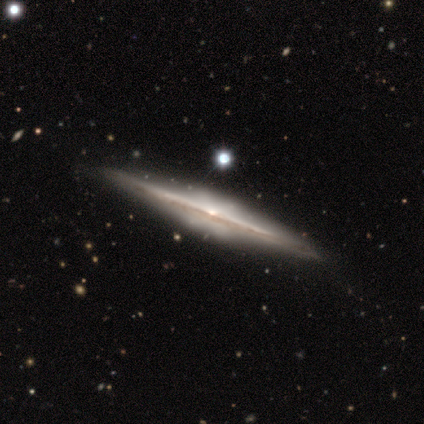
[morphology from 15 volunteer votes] This is likely a featured or disk galaxy (60%). It is clearly viewed edge-on (100%). Edge-on bulge: likely rounded (67%). Merging: clearly none (100%).